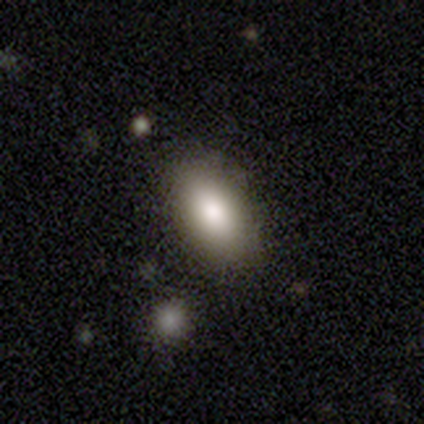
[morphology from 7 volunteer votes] This is clearly a smooth galaxy (86%). How rounded: clearly in between (100%). Merging: clearly none (83%).